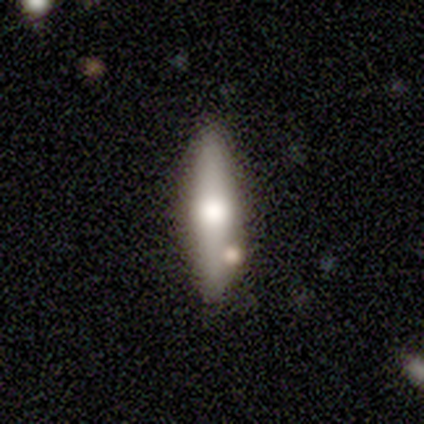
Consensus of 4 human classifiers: This appears to be a featured or disk galaxy (75%) viewed edge-on (100%) with a rounded central bulge (100%). Merging: none (75%).